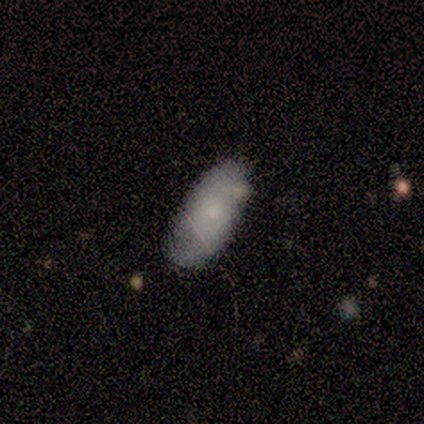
Q: Smooth or featured?
A: smooth (80%); runner-up: featured or disk (20%)
Q: How rounded?
A: in between (100%)
Q: Merging?
A: none (80%); runner-up: major disturbance (20%)